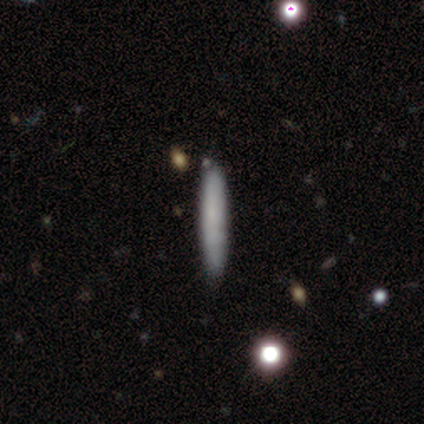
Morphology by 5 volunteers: Q: Smooth or featured?
A: smooth (100%)
Q: How rounded?
A: cigar-shaped (80%); runner-up: in between (20%)
Q: Merging?
A: none (100%)